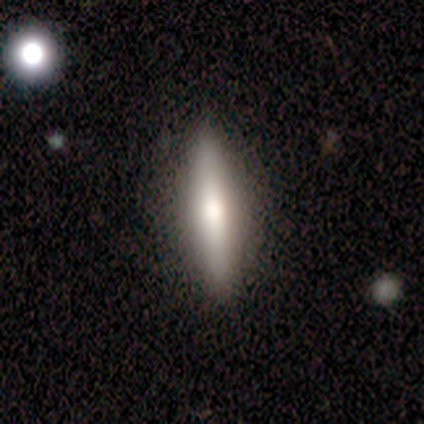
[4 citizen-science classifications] Overall: smooth (100%). How rounded: cigar-shaped (75%). Merging: none (75%).